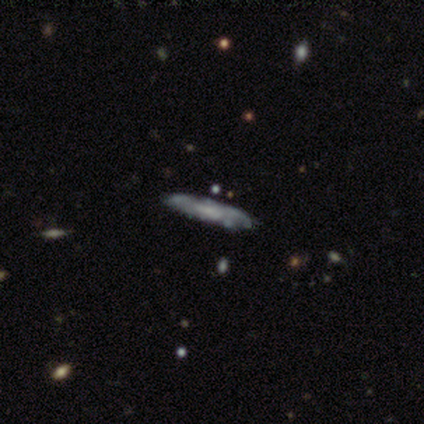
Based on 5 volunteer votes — Smooth or featured: featured or disk — 60% (smooth — 20%)
Edge-on disk: yes — 67% (no — 33%)
Edge-on bulge: none — 100%
Merging: none — 100%